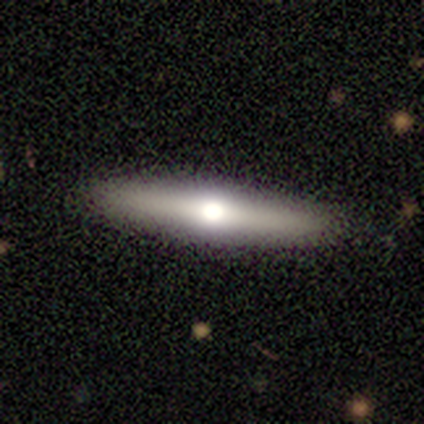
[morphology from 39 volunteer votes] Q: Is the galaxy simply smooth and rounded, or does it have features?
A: featured or disk — 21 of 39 (54%).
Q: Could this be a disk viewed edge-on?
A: yes — 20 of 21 (95%).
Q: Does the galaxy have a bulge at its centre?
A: rounded — 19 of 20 (95%).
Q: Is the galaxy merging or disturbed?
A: none — 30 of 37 (81%).